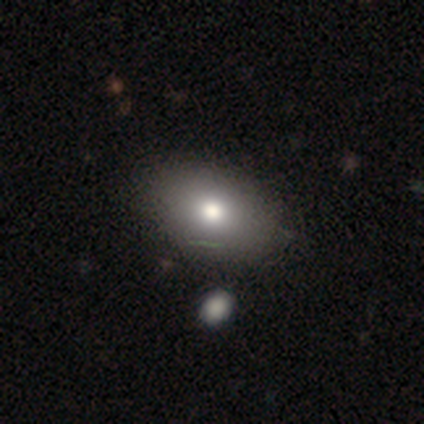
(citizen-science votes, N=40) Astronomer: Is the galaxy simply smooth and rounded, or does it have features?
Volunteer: smooth — 78%.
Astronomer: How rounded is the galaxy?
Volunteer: in between — 81%.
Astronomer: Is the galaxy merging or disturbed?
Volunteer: none — 58%.